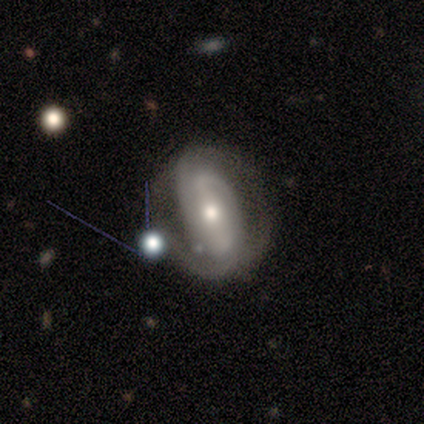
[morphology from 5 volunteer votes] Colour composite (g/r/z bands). It shows a featured or disk galaxy (100%) with a strong bar (40%, tied with weak), 2 (60%) tight (60%) spiral arms (100%) and a moderate central bulge (40%, tied with small). Merging: none (60%).